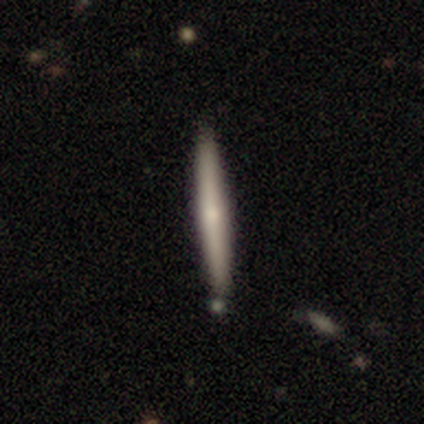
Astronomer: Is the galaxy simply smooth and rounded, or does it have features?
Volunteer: smooth — 49% (runner-up: featured or disk, 48%).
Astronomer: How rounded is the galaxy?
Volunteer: cigar-shaped — 100%.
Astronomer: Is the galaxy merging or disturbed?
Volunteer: none — 44%.